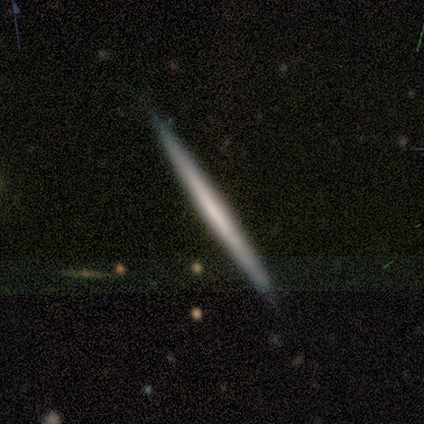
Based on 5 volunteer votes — This appears to be a featured or disk galaxy (60%) viewed edge-on (100%) with no central bulge (67%). Merging: none (100%).